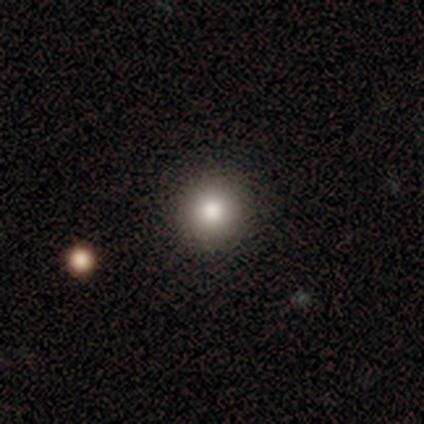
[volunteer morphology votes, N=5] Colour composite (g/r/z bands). It shows a smooth galaxy with no disk features (60%) that is round (100%). Merging: none (100%).